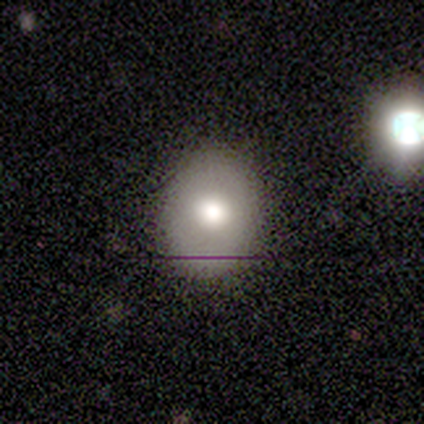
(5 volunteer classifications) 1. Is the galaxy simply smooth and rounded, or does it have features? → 60% smooth, 20% featured or disk, 20% star or artifact.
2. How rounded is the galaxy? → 67% round, 33% in between, 0% cigar-shaped.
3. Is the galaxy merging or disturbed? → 100% none, 0% minor disturbance, 0% major disturbance, 0% merger.